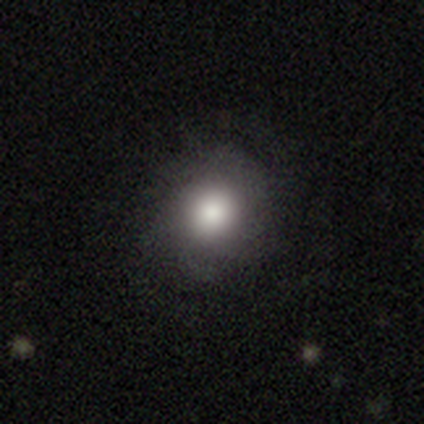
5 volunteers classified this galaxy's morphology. This is clearly a smooth galaxy (80%). How rounded: clearly round (100%). Merging: likely none (60%).